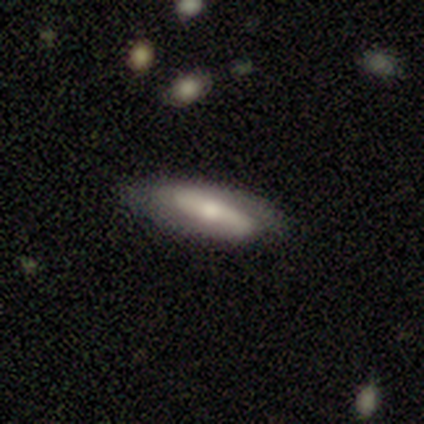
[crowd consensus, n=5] Smooth or featured? 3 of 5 (60%) said featured or disk. Edge-on disk? 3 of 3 (100%) said no. Bar? 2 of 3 (67%) said strong. Spiral arms? 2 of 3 (67%) said no. Bulge size? 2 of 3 (67%) said moderate. Merging? 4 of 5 (80%) said none.